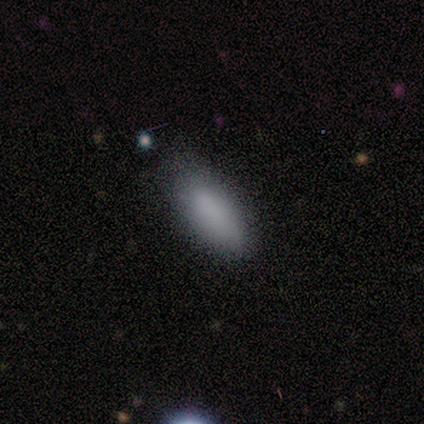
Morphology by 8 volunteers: Volunteers were most divided on "how rounded": in between: 62%, cigar-shaped: 38%, round: 0%. More confident: smooth or featured — smooth (100%); merging — none (88%).